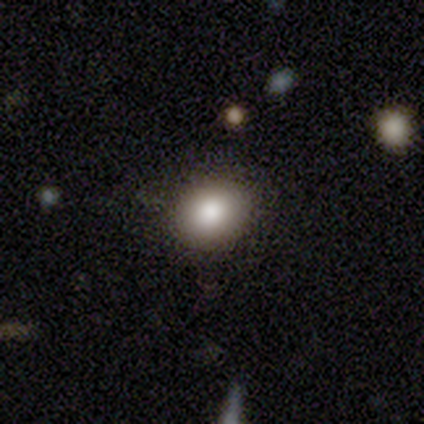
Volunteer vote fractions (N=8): A smooth galaxy with no disk features (88%) that is in between round and cigar-shaped (71%). Merging: none (86%).